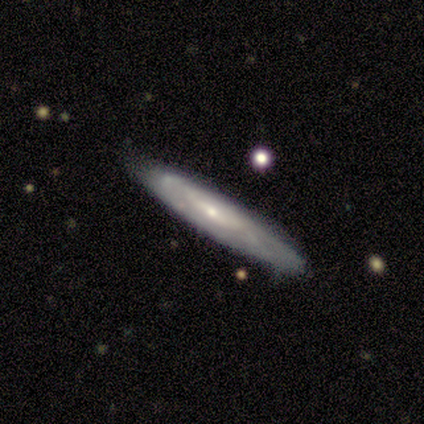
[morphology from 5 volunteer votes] This appears to be a featured or disk galaxy (60%) viewed edge-on (67%) with no central bulge (100%). Merging: none (80%).